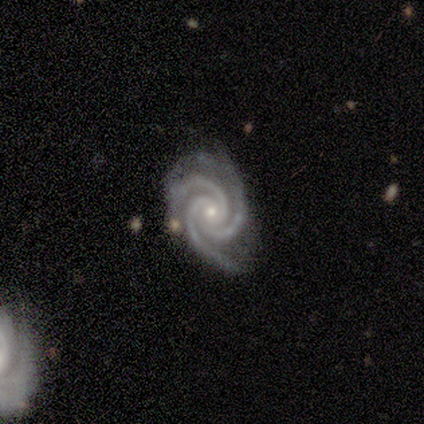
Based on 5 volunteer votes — Smooth or featured? 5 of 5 (100%) said featured or disk. Edge-on disk? 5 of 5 (100%) said no. Bar? 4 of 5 (80%) said no. Spiral arms? 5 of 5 (100%) said yes. Spiral winding? 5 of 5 (100%) said tight. Spiral arm count? 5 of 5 (100%) said 3. Bulge size? 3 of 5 (60%) said small. Merging? 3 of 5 (60%) said minor disturbance.